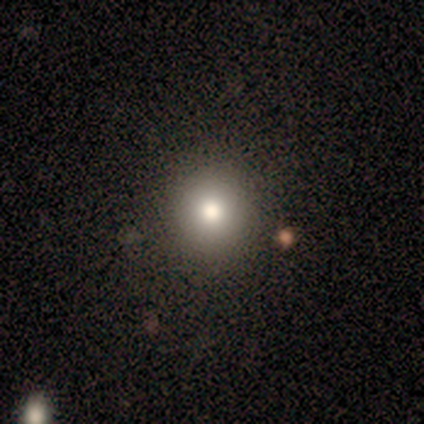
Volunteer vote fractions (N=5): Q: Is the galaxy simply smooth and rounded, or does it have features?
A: smooth — 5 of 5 (100%).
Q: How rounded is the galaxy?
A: round — 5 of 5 (100%).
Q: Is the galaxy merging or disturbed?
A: none — 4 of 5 (80%).